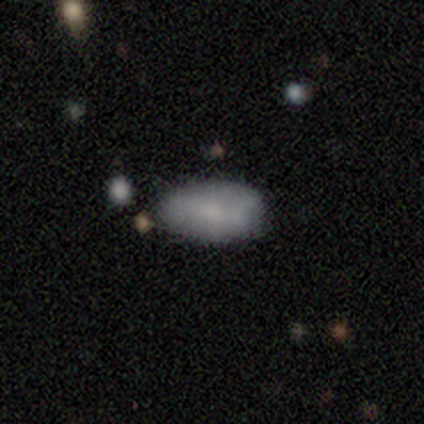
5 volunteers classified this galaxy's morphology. smooth-or-featured: smooth: 100% | featured or disk: 0% | star or artifact: 0%
  how-rounded: in between: 80% | cigar-shaped: 20% | round: 0%
  merging: none: 80% | minor disturbance: 20% | major disturbance: 0% | merger: 0%